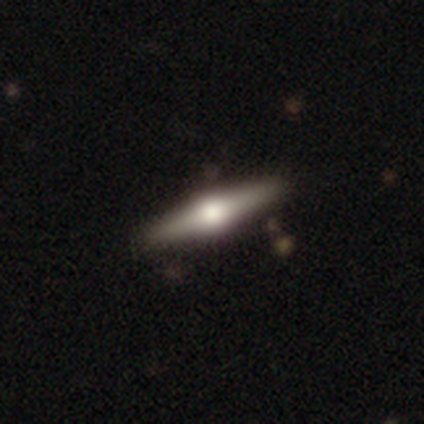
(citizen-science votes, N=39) Overall: featured or disk (79%). Edge-on disk: yes (100%). Edge-on bulge: rounded (94%). Merging: none (84%).